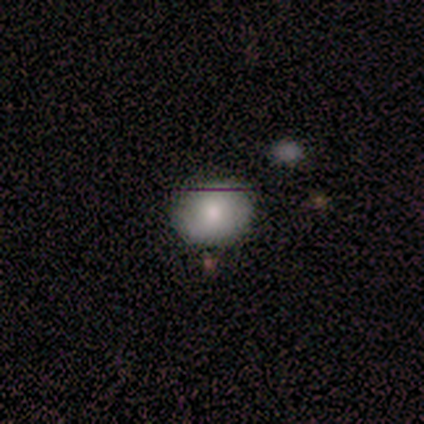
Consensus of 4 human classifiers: Smooth or featured? smooth (100%)
How rounded? round (50%, tied with in between)
Merging? none (50%, tied with minor disturbance)